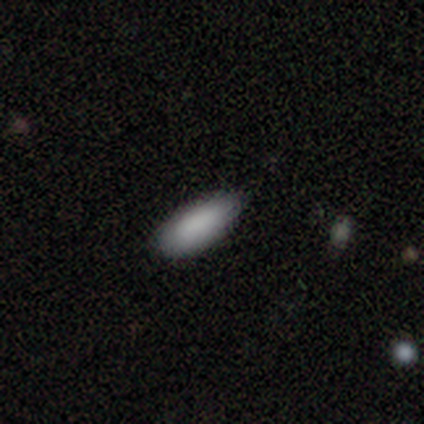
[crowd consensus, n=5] smooth_or_featured: smooth (p=1.00)
how_rounded: in between (p=0.60) [alt: cigar-shaped p=0.40]
merging: none (p=0.80) [alt: minor disturbance p=0.20]